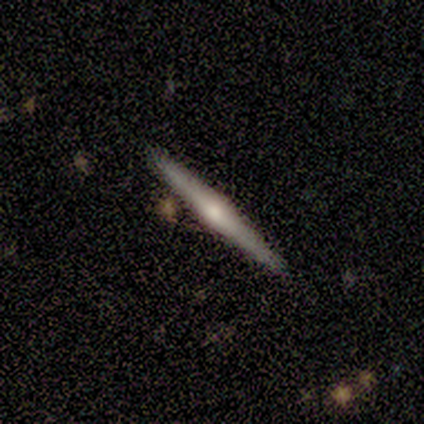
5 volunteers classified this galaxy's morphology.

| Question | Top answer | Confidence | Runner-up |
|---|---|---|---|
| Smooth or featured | featured or disk | 100% | — |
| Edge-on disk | yes | 100% | — |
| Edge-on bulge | rounded | 100% | — |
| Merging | none | 100% | — |